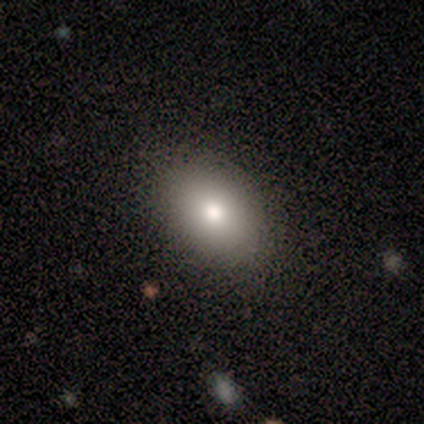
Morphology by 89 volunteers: A smooth galaxy with no disk features (79%) that is in between round and cigar-shaped (84%). Merging: none (90%).